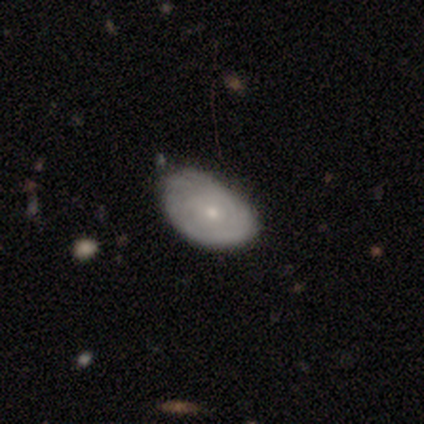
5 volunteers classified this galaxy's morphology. Volunteers were most divided on "bar" (2-way tie): weak: 50%, no: 50%, strong: 0%; "spiral arms" (2-way tie): yes: 50%, no: 50%; "spiral winding" (2-way tie): tight: 50%, loose: 50%, medium: 0%. More confident: edge-on disk — no (100%); spiral arm count — can't tell (100%); bulge size — small (100%); smooth or featured — featured or disk (80%); merging — none (60%).